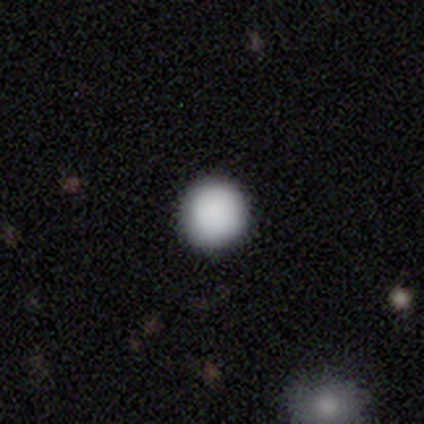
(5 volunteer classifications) Morphology: type=smooth (100%); roundness=round (100%); merging=none (80%).